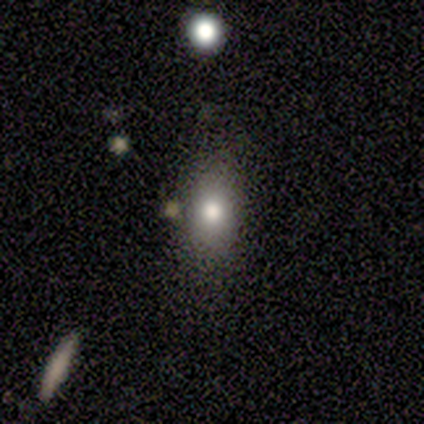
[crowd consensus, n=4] smooth-or-featured: smooth: 50% | featured or disk: 25% | star or artifact: 25%
  how-rounded: round: 50% (tied) | in between: 50% (tied) | cigar-shaped: 0%
  merging: none: 33% (tied) | minor disturbance: 33% (tied) | major disturbance: 33% (tied) | merger: 0%